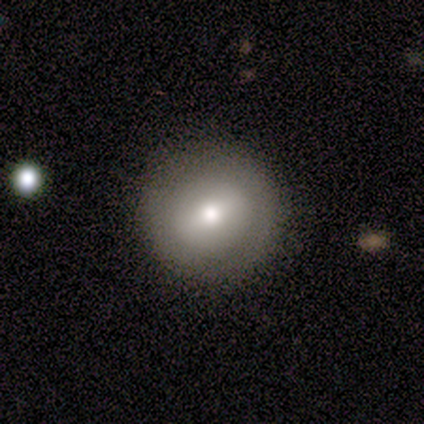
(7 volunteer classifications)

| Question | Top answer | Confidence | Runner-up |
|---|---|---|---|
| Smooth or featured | featured or disk | 86% | star or artifact (14%) |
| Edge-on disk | no | 83% | yes (17%) |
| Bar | strong | 40% | tied: weak (40%) |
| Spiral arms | no | 80% | yes (20%) |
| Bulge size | moderate | 60% | large (20%) |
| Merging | none | 100% | — |